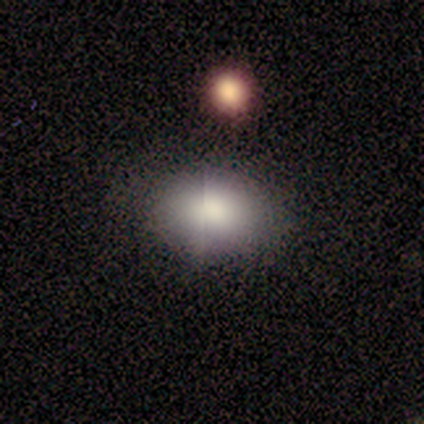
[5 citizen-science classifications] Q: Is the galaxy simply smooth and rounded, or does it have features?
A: smooth — 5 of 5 (100%).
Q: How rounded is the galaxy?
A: in between — 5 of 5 (100%).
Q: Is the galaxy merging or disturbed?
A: none — 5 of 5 (100%).